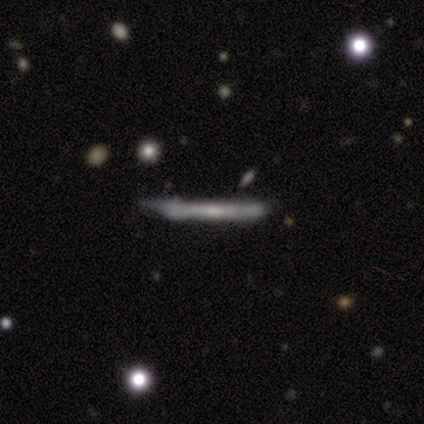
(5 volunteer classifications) Q: Smooth or featured?
A: featured or disk (60%); runner-up: smooth (20%)
Q: Edge-on disk?
A: yes (100%)
Q: Edge-on bulge?
A: none (100%)
Q: Merging?
A: none (75%); runner-up: minor disturbance (25%)